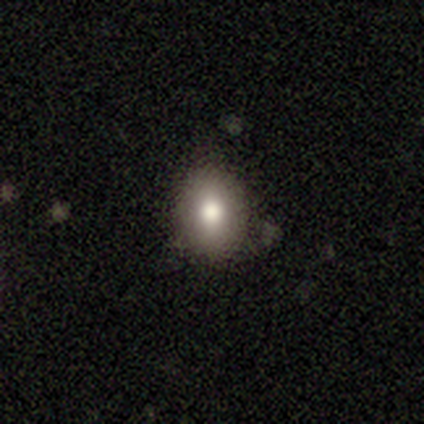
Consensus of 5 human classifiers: A smooth galaxy with no disk features (80%) that is round (100%).

Vote fractions:
- Smooth or featured? smooth: 80% / star or artifact: 20% / featured or disk: 0%
- How rounded? round: 100% / in between: 0% / cigar-shaped: 0%
- Merging? none: 100% / minor disturbance: 0% / major disturbance: 0% / merger: 0%